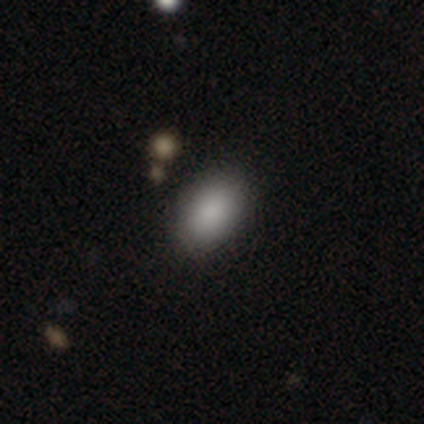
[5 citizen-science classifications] A smooth galaxy with no disk features (100%) that is in between round and cigar-shaped (80%).

Vote fractions:
- Smooth or featured? smooth: 100% / featured or disk: 0% / star or artifact: 0%
- How rounded? in between: 80% / round: 20% / cigar-shaped: 0%
- Merging? none: 80% / minor disturbance: 20% / major disturbance: 0% / merger: 0%